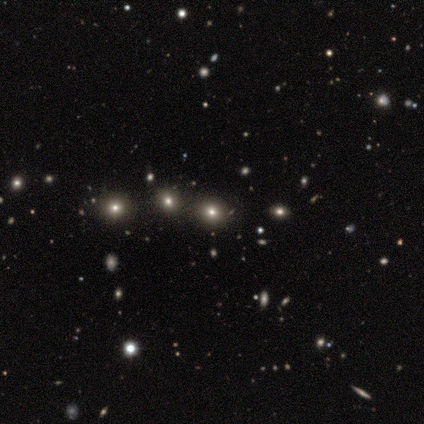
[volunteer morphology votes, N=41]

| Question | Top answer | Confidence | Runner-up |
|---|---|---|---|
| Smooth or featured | star or artifact | 44% | smooth (41%) |